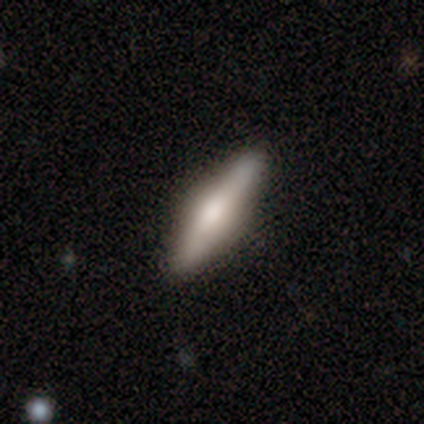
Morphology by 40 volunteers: A featured or disk galaxy (62%) viewed edge-on (96%) with a rounded central bulge (75%). Merging: none (90%).